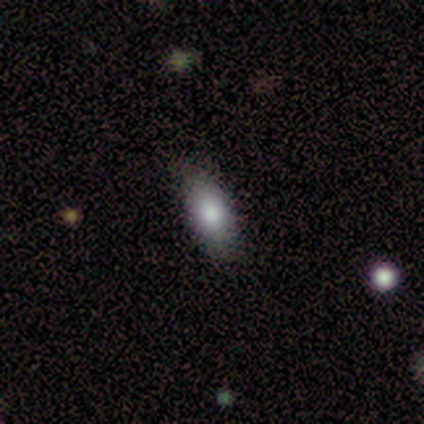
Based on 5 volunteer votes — A smooth galaxy with no disk features (80%) that is in between round and cigar-shaped (75%). Merging: none (80%).